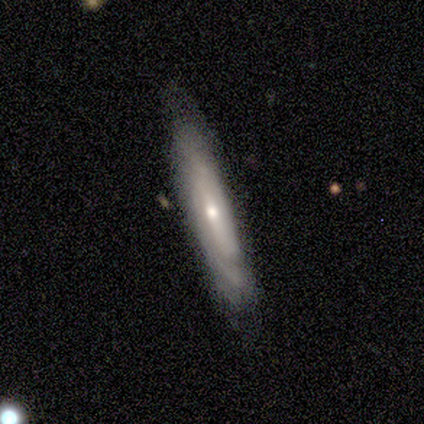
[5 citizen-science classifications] This is likely a featured or disk galaxy (60%). It is likely not viewed edge-on (67%). Bar: possibly strong (50%, tied with no). Spiral arm pattern: clearly no (100%). Central bulge: clearly moderate (100%). Merging: likely none (60%).